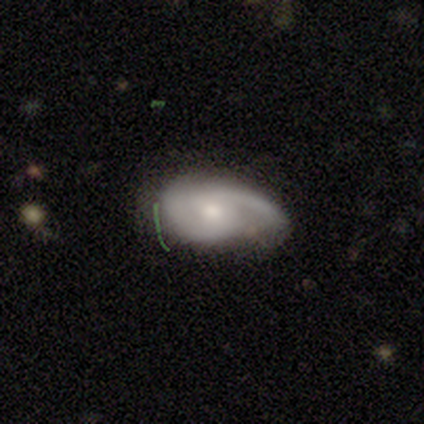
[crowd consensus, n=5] Smooth or featured? 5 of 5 (100%) said featured or disk. Edge-on disk? 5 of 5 (100%) said no. Bar? 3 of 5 (60%) said weak. Spiral arms? 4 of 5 (80%) said yes. Spiral winding? 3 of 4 (75%) said medium. Spiral arm count? 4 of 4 (100%) said 2. Bulge size? 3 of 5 (60%) said moderate. Merging? 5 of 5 (100%) said none.